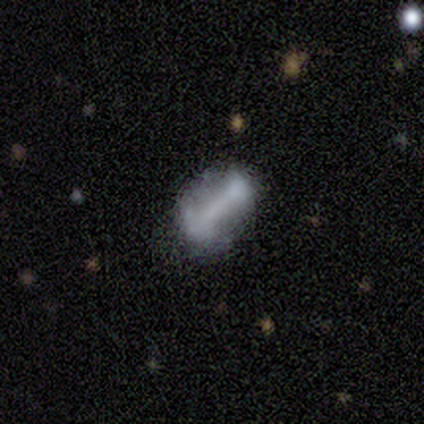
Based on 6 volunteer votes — Morphology: type=featured or disk (67%); edge-on=no (100%); bar=strong (50%, tied with weak); spiral arms=no (75%); bulge=none (75%); merging=none (60%).